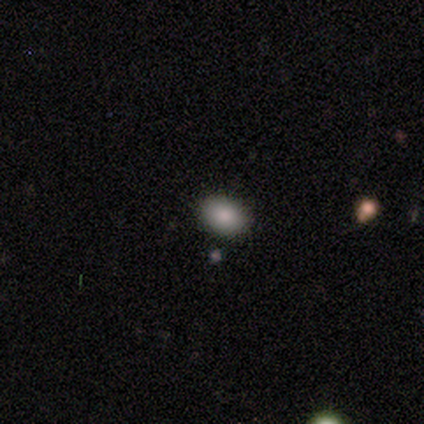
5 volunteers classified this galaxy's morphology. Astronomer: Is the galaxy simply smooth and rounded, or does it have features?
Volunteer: smooth — 80%.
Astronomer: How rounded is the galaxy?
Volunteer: round — 50%, tied with in between at 50%.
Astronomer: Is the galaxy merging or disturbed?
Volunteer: none — 100%.